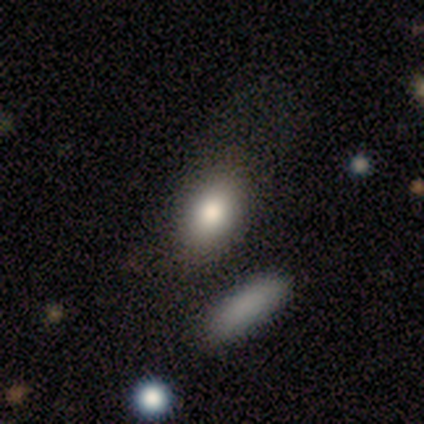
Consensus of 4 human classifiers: Overall: smooth (50%; featured or disk 25%). How rounded: round (50%, tied with in between). Merging: none (33%, tied with minor disturbance and merger).